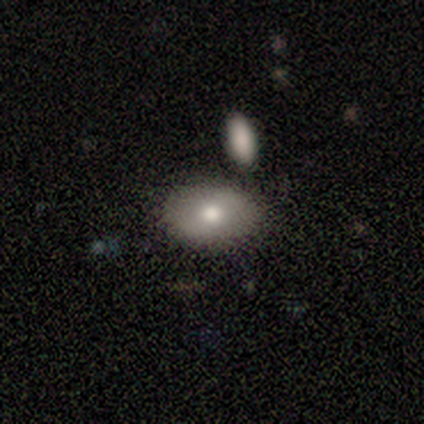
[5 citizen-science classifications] smooth-or-featured: smooth: 40% (tied) | featured or disk: 40% (tied) | star or artifact: 20%
  how-rounded: round: 50% (tied) | in between: 50% (tied) | cigar-shaped: 0%
  merging: none: 100% | minor disturbance: 0% | major disturbance: 0% | merger: 0%